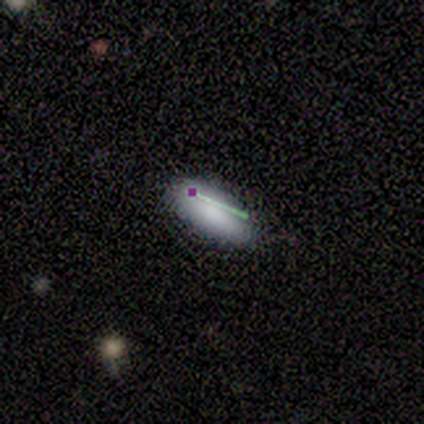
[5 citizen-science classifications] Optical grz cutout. It shows a smooth galaxy with no disk features (80%) that is in between round and cigar-shaped (100%). Merging: none (100%).